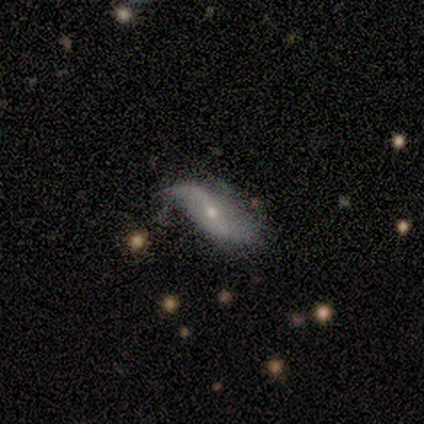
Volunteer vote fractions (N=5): smooth_or_featured: featured or disk (p=0.40) [tied with: star or artifact p=0.40]
disk_edge_on: no (p=1.00)
bar: strong (p=0.50) [tied with: weak p=0.50]
has_spiral_arms: yes (p=1.00)
spiral_winding: loose (p=1.00)
spiral_arm_count: 2 (p=1.00)
bulge_size: moderate (p=0.50) [tied with: small p=0.50]
merging: none (p=0.67) [alt: merger p=0.33]